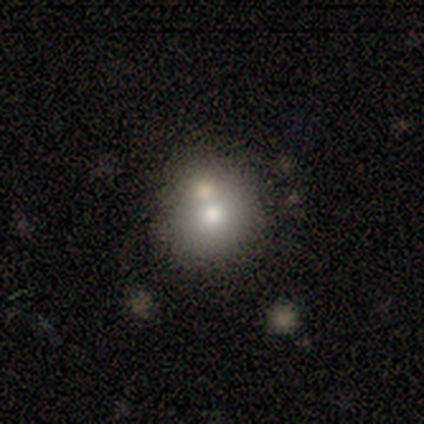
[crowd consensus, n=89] Overall: smooth (65%). How rounded: round (88%). Merging: none (51%; merger 34%).